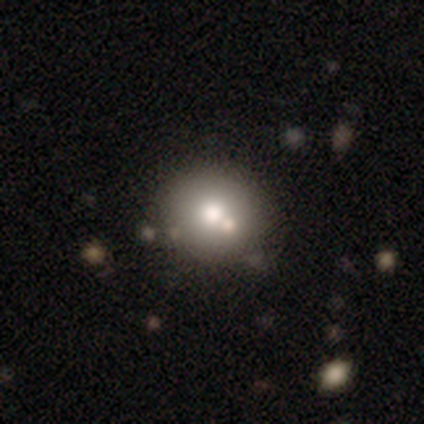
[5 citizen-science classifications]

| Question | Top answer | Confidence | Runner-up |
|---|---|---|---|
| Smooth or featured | smooth | 60% | star or artifact (40%) |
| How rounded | round | 100% | — |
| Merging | none | 67% | merger (33%) |